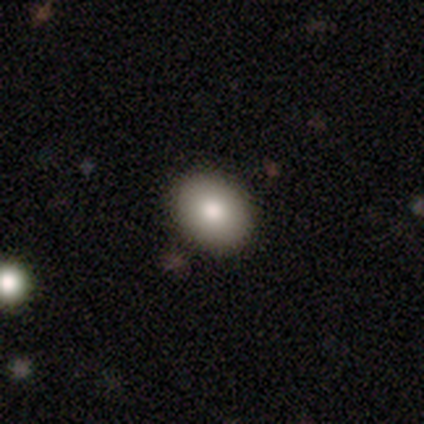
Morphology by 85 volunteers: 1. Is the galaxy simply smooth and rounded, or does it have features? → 76% smooth, 12% featured or disk, 12% star or artifact.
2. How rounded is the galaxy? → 58% in between, 42% round, 0% cigar-shaped.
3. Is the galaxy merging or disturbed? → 85% none, 13% minor disturbance, 1% major disturbance, 0% merger.